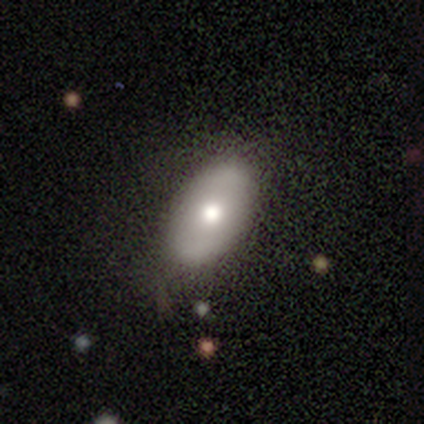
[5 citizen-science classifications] Overall: smooth (80%). How rounded: in between (100%). Merging: none (60%; minor disturbance 20%).